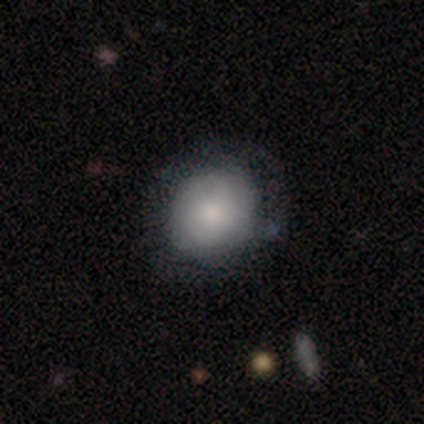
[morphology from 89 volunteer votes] Volunteers were most divided on "merging": none: 66%, minor disturbance: 25%, major disturbance: 5%, merger: 4%. More confident: how rounded — round (80%); smooth or featured — smooth (72%).